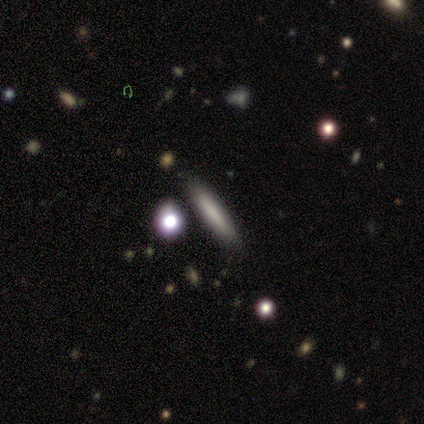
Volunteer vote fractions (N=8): Smooth or featured?
  - smooth: 100% *
  - featured or disk: 0%
  - star or artifact: 0%
How rounded?
  - cigar-shaped: 88% *
  - in between: 12%
  - round: 0%
Merging?
  - none: 100% *
  - minor disturbance: 0%
  - major disturbance: 0%
  - merger: 0%